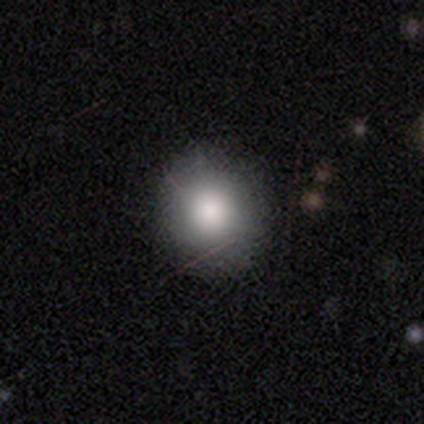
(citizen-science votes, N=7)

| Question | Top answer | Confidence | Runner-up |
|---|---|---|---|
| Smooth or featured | smooth | 86% | star or artifact (14%) |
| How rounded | round | 100% | — |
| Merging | none | 83% | minor disturbance (17%) |